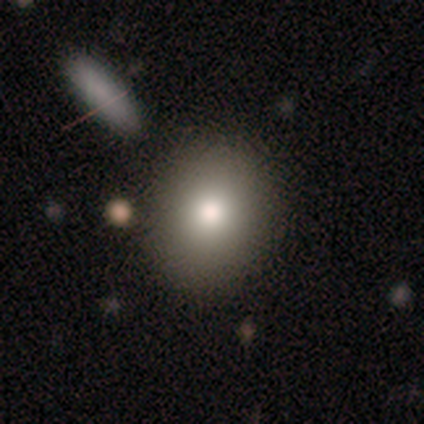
smooth-or-featured: smooth: 75% | star or artifact: 25% | featured or disk: 0%
  how-rounded: round: 100% | in between: 0% | cigar-shaped: 0%
  merging: none: 100% | minor disturbance: 0% | major disturbance: 0% | merger: 0%